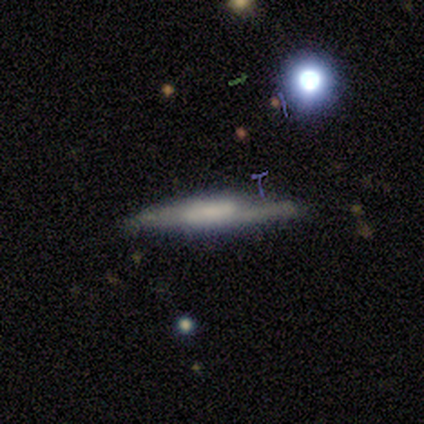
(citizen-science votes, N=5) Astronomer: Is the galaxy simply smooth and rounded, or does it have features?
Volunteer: featured or disk — 60% (runner-up: smooth, 40%).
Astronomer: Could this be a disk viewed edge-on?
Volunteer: yes — 100%.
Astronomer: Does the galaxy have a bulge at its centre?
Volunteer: boxy — 67%.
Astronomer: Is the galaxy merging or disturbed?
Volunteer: minor disturbance — 40%, tied with major disturbance at 40%.